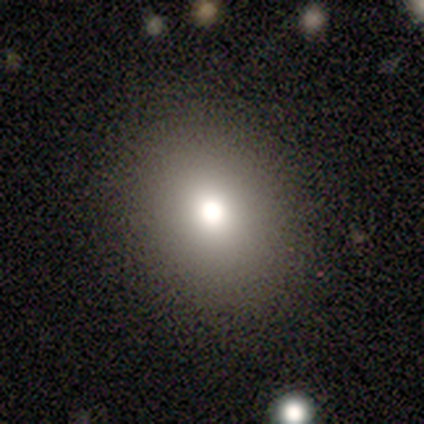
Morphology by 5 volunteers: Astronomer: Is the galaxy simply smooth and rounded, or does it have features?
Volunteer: featured or disk — 60% (runner-up: smooth, 40%).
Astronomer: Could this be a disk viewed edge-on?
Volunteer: no — 100%.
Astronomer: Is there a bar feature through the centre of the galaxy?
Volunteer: no — 100%.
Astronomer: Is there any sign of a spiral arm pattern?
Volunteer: no — 100%.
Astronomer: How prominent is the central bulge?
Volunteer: moderate — 100%.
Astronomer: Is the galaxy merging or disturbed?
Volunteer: none — 100%.